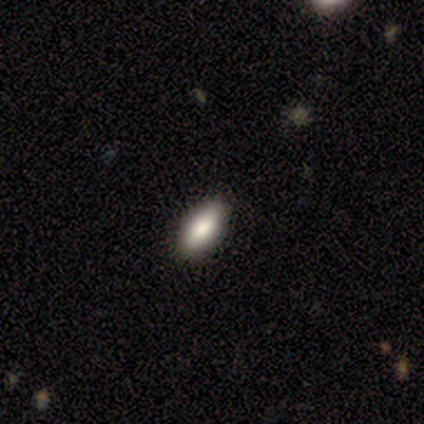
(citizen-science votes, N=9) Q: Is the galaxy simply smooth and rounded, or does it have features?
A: smooth — 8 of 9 (89%).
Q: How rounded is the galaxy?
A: in between — 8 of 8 (100%).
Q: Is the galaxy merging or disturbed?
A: none — 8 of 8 (100%).